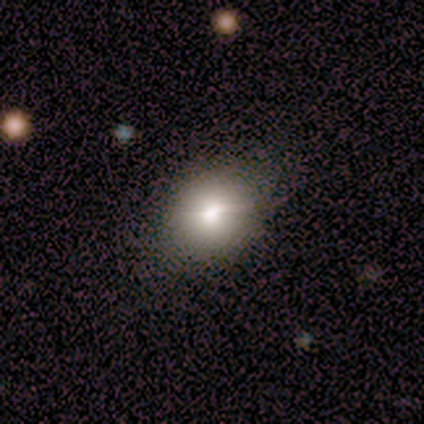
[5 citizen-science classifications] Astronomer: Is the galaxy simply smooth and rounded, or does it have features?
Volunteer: smooth — 80%.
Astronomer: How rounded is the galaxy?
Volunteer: round — 50%, tied with in between at 50%.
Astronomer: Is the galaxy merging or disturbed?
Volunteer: none — 100%.